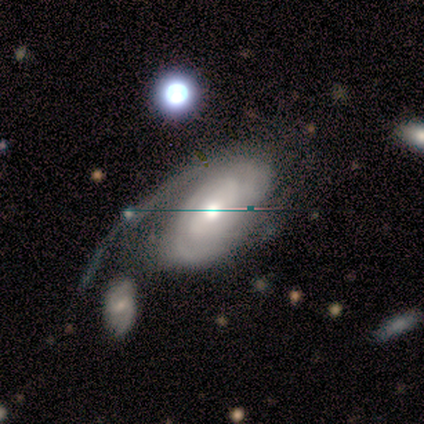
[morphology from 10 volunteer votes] smooth-or-featured: featured or disk: 90% | star or artifact: 10% | smooth: 0%
  disk-edge-on: no: 100% | yes: 0%
    bar: no: 89% | weak: 11% | strong: 0%
    has-spiral-arms: yes: 78% | no: 22%
      spiral-winding: tight: 71% | medium: 14% | loose: 14%
      spiral-arm-count: 2: 57% | 1: 29% | 3: 14% | 4: 0% | more than 4: 0% | can't tell: 0%
    bulge-size: moderate: 56% | small: 22% | large: 11% | none: 11% | dominant: 0%
  merging: merger: 33% | minor disturbance: 11% | major disturbance: 11% | none: 0%